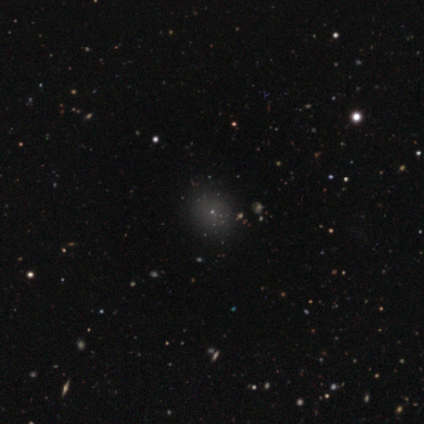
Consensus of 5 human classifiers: Morphology: type=star or artifact (60%).